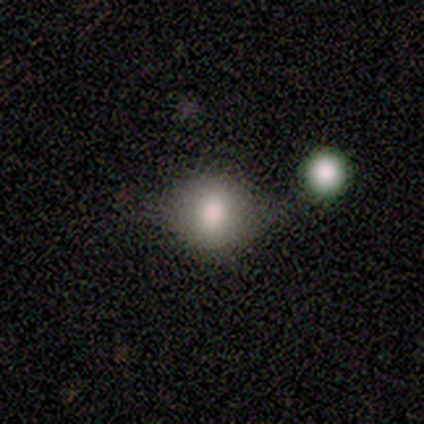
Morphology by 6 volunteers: This appears to be a smooth galaxy with no disk features (100%) that is round (50%, tied with in between). Merging: none (67%).